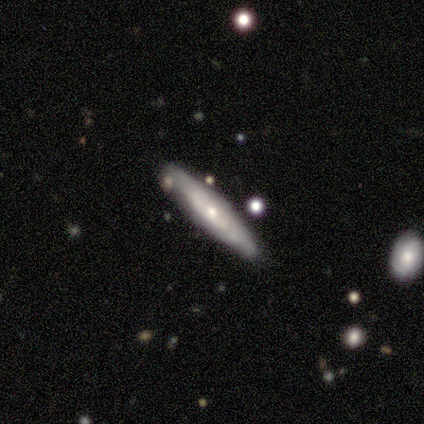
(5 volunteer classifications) Morphology: type=featured or disk (60%); edge-on=yes (67%); edge-on bulge=rounded (100%); merging=none (80%).